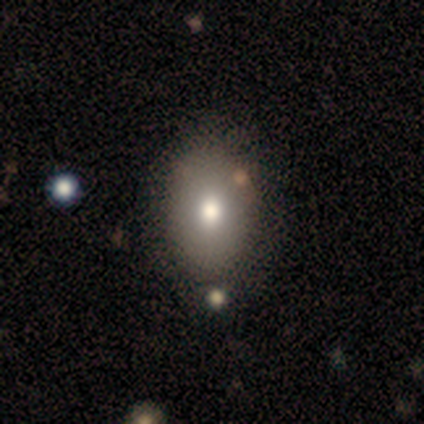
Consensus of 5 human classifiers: Smooth or featured? 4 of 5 (80%) said smooth. How rounded? 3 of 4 (75%) said in between. Merging? 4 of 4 (100%) said none.